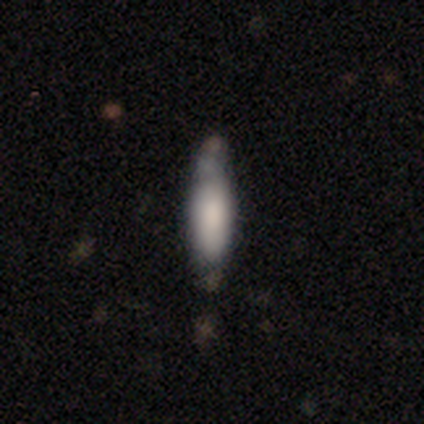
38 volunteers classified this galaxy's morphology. Smooth or featured? 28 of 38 (74%) said smooth. How rounded? 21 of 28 (75%) said cigar-shaped. Merging? 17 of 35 (49%) said none.